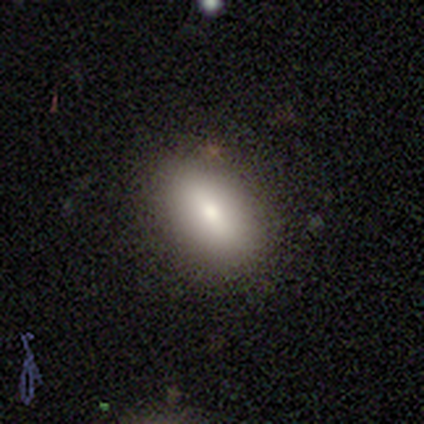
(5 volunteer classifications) Morphology: type=smooth (80%); roundness=in between (75%); merging=none (80%).